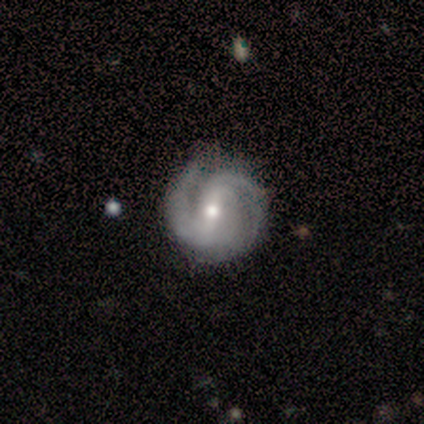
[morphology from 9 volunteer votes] Overall: featured or disk (89%). Edge-on disk: no (100%). Bar: weak (75%). Spiral arms: yes (88%). Spiral arm count: 2 (71%). Spiral winding: tight (43%, tied with medium). Bulge size: moderate (62%; small 38%). Merging: none (78%).